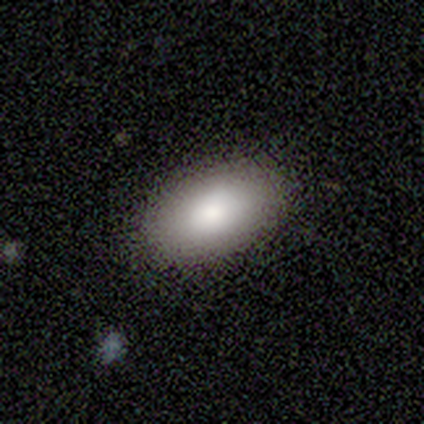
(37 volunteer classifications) Smooth or featured: smooth — 81% (featured or disk — 16%)
How rounded: in between — 93% (round — 3%)
Merging: none — 86% (minor disturbance — 11%)